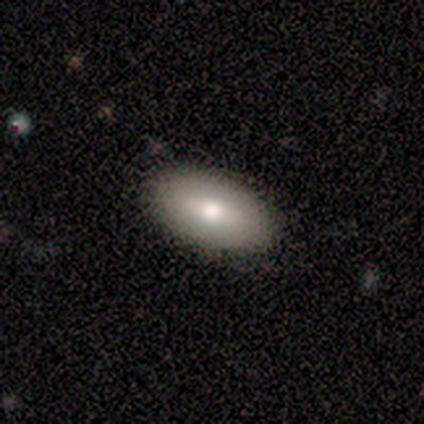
A smooth galaxy with no disk features (80%) that is in between round and cigar-shaped (100%). Merging: none (80%).